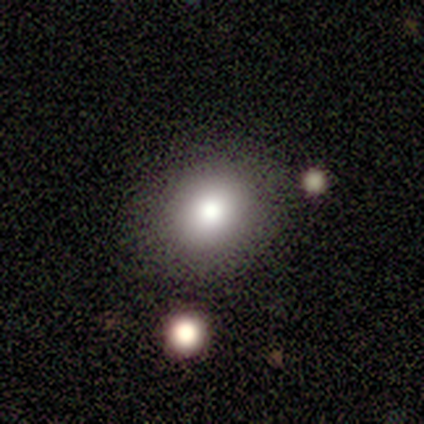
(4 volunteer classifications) Smooth or featured?
  - smooth: 75% *
  - star or artifact: 25%
  - featured or disk: 0%
How rounded?
  - in between: 67% *
  - round: 33%
  - cigar-shaped: 0%
Merging?
  - none: 100% *
  - minor disturbance: 0%
  - major disturbance: 0%
  - merger: 0%